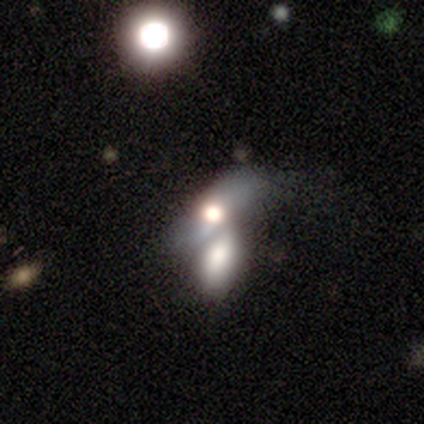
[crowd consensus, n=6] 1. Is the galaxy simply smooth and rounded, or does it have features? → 67% smooth, 33% featured or disk, 0% star or artifact.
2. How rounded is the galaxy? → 75% in between, 25% cigar-shaped, 0% round.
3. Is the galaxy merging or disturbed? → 83% merger, 17% none, 0% minor disturbance, 0% major disturbance.